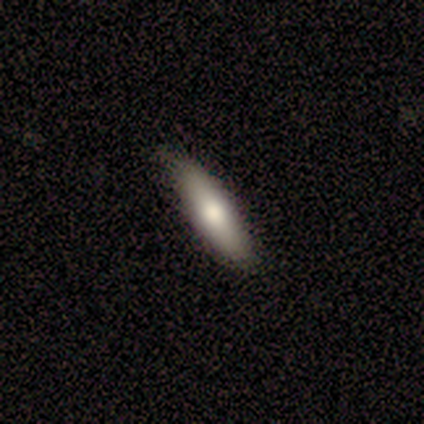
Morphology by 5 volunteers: smooth-or-featured: smooth: 80% | featured or disk: 20% | star or artifact: 0%
  how-rounded: in between: 75% | cigar-shaped: 25% | round: 0%
  merging: none: 60% | minor disturbance: 40% | major disturbance: 0% | merger: 0%